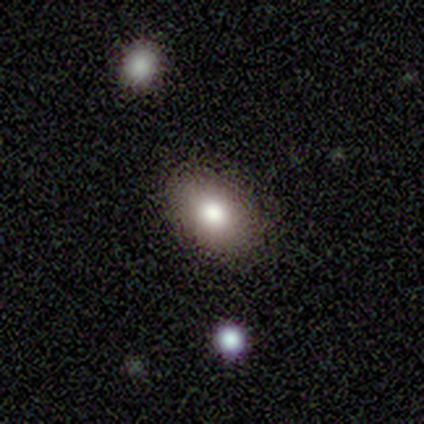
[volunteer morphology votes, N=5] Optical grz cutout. It shows a smooth galaxy with no disk features (80%) that is in between round and cigar-shaped (75%). Merging: none (80%).